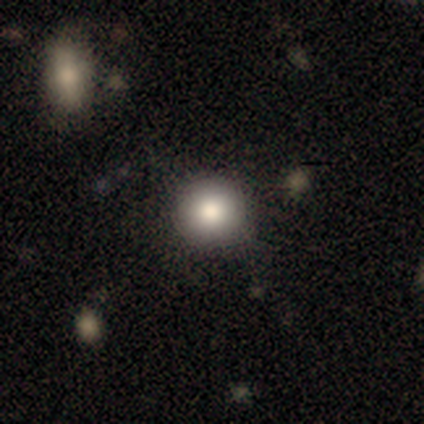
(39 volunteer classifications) smooth_or_featured: smooth (p=0.92) [alt: featured or disk p=0.05]
how_rounded: round (p=1.00)
merging: none (p=0.92) [alt: minor disturbance p=0.05]